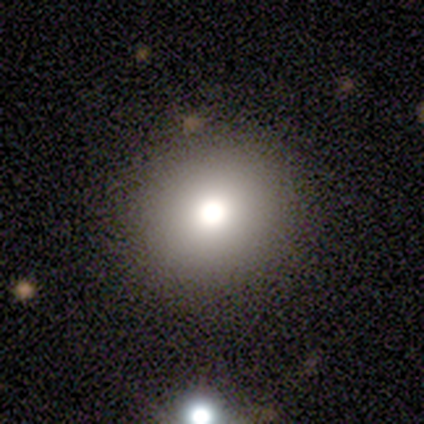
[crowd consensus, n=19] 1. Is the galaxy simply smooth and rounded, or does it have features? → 79% smooth, 21% featured or disk, 0% star or artifact.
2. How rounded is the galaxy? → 80% round, 20% in between, 0% cigar-shaped.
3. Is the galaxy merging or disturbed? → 89% none, 5% minor disturbance, 5% major disturbance, 0% merger.